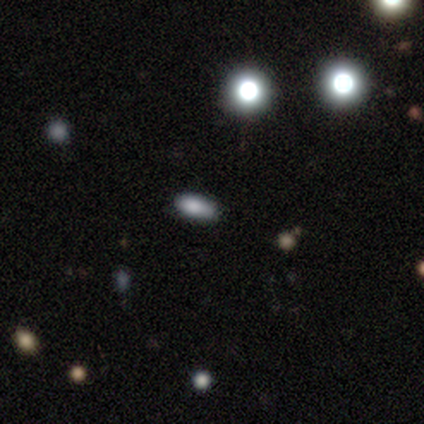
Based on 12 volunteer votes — Smooth or featured: smooth — 83% (star or artifact — 17%)
How rounded: in between — 50% (cigar-shaped — 30%)
Merging: none — 80% (minor disturbance — 20%)